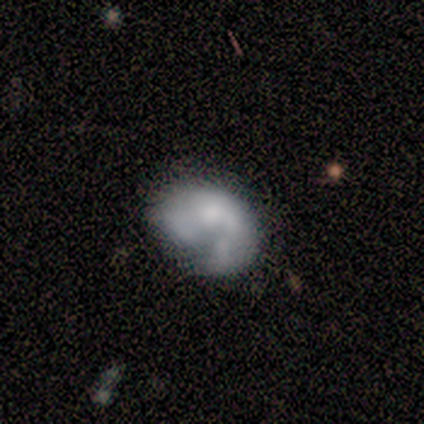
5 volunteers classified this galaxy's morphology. Q: Smooth or featured?
A: featured or disk (60%); runner-up: smooth (40%)
Q: Edge-on disk?
A: no (100%)
Q: Bar?
A: no (100%)
Q: Spiral arms?
A: yes (67%); runner-up: no (33%)
Q: Spiral winding?
A: tight (50%); tied with: loose (50%)
Q: Spiral arm count?
A: 1 (50%); tied with: can't tell (50%)
Q: Bulge size?
A: small (67%); runner-up: moderate (33%)
Q: Merging?
A: minor disturbance (40%); tied with: major disturbance (40%)